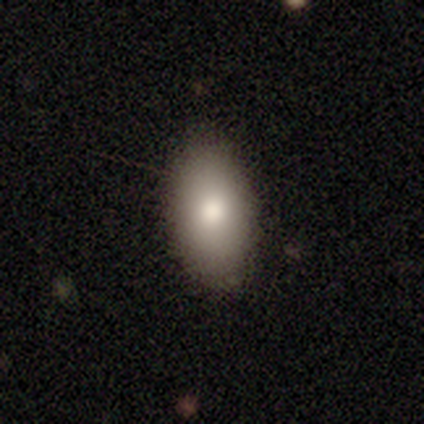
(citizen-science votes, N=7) Smooth or featured?
  - smooth: 86% *
  - featured or disk: 14%
  - star or artifact: 0%
How rounded?
  - in between: 100% *
  - round: 0%
  - cigar-shaped: 0%
Merging?
  - none: 100% *
  - minor disturbance: 0%
  - major disturbance: 0%
  - merger: 0%